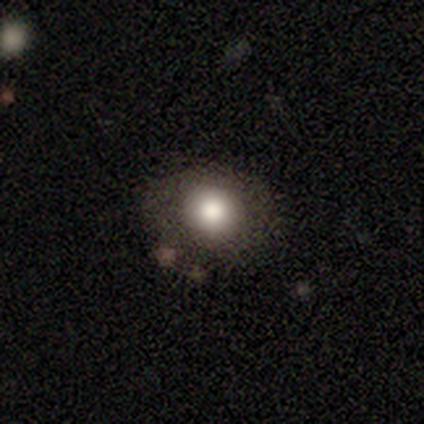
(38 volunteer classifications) Q: Smooth or featured?
A: smooth (82%); runner-up: featured or disk (13%)
Q: How rounded?
A: round (68%); runner-up: in between (32%)
Q: Merging?
A: none (89%); runner-up: minor disturbance (8%)